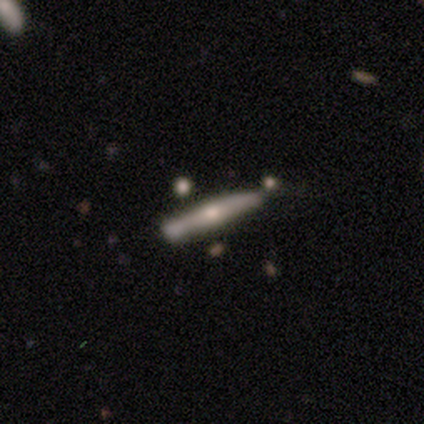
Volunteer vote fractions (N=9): smooth-or-featured: featured or disk: 89% | smooth: 11% | star or artifact: 0%
  disk-edge-on: yes: 100% | no: 0%
    edge-on-bulge: rounded: 88% | none: 12% | boxy: 0%
  merging: minor disturbance: 56% | none: 44% | major disturbance: 0% | merger: 0%